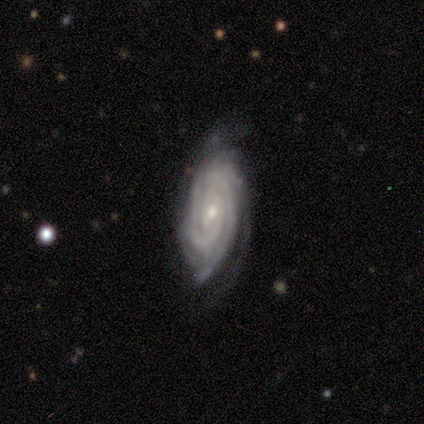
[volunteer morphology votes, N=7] Smooth or featured? featured or disk (100%)
Edge-on disk? no (100%)
Bar? weak (57%)
Spiral arms? yes (100%)
Spiral winding? tight (57%)
Spiral arm count? 2 (57%)
Bulge size? small (71%)
Merging? minor disturbance (43%)